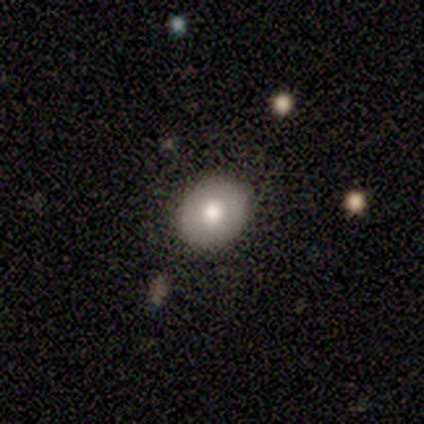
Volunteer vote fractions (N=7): Smooth or featured? 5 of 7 (71%) said smooth. How rounded? 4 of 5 (80%) said round. Merging? 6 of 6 (100%) said none.